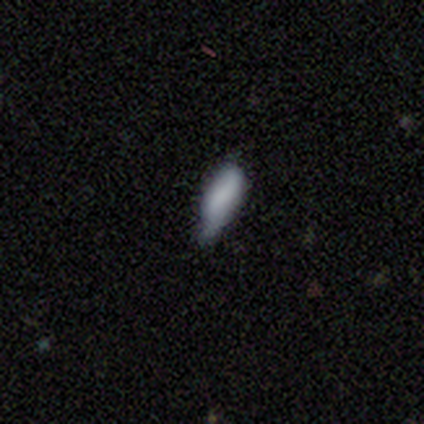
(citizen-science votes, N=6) This is clearly a smooth galaxy (83%). How rounded: clearly in between (80%). Merging: possibly none (50%, tied with minor disturbance).